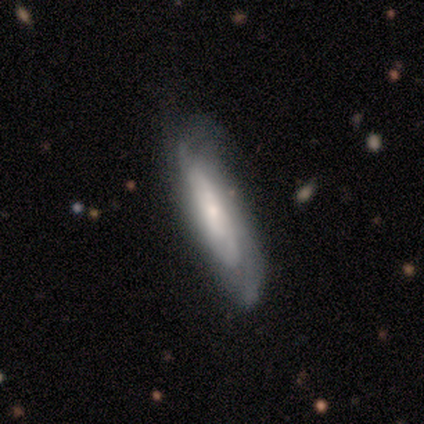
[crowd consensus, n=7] smooth-or-featured: featured or disk: 71% | smooth: 14% | star or artifact: 14%
  disk-edge-on: no: 80% | yes: 20%
    bar: no: 75% | weak: 25% | strong: 0%
    has-spiral-arms: yes: 100% | no: 0%
      spiral-winding: tight: 50% | medium: 25% | loose: 25%
      spiral-arm-count: can't tell: 75% | 2: 25% | 1: 0% | 3: 0% | 4: 0% | more than 4: 0%
    bulge-size: small: 100% | dominant: 0% | large: 0% | moderate: 0% | none: 0%
  merging: none: 33% (tied) | minor disturbance: 33% (tied) | major disturbance: 33% (tied) | merger: 0%